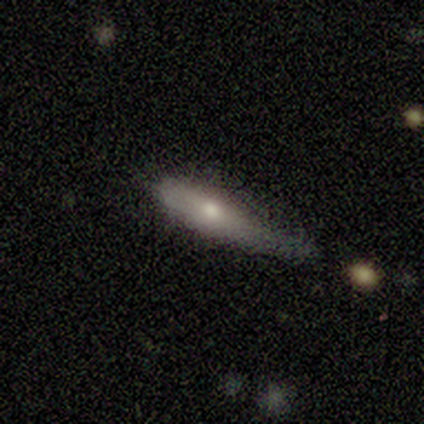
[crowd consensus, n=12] Q: Smooth or featured?
A: smooth (50%); runner-up: featured or disk (42%)
Q: How rounded?
A: cigar-shaped (67%); runner-up: in between (33%)
Q: Merging?
A: minor disturbance (55%); runner-up: none (27%)